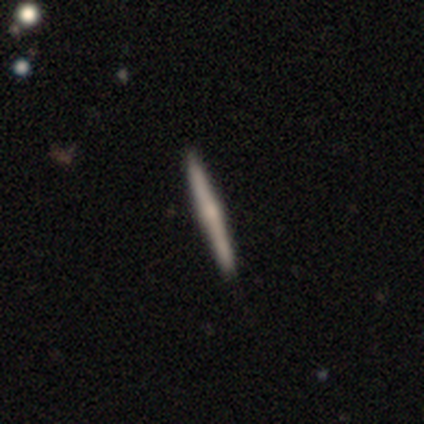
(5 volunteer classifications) Smooth or featured? 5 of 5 (100%) said featured or disk. Edge-on disk? 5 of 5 (100%) said yes. Edge-on bulge? 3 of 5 (60%) said rounded. Merging? 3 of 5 (60%) said none.